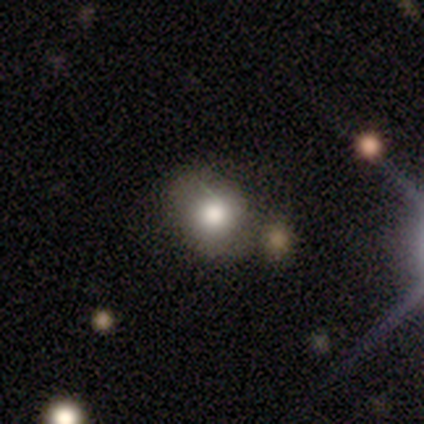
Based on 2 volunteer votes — This is clearly a smooth galaxy (100%). How rounded: clearly round (100%). Merging: clearly none (100%).